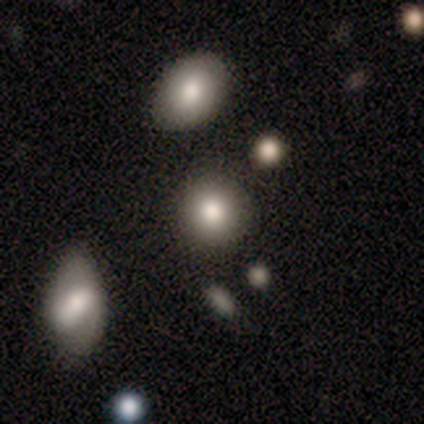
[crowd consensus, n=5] smooth 80%, featured or disk 20%, star or artifact 0%. Down the decision tree: how rounded — round (75%); merging — none (80%).